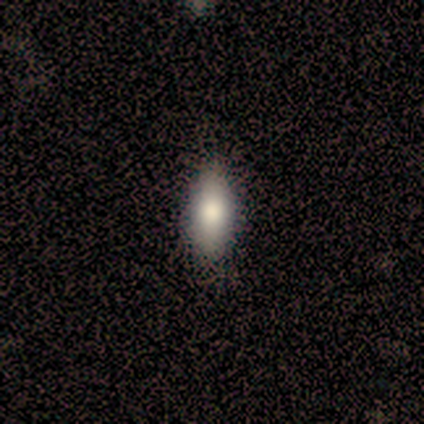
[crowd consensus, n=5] Smooth or featured? 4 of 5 (80%) said smooth. How rounded? 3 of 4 (75%) said in between. Merging? 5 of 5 (100%) said none.